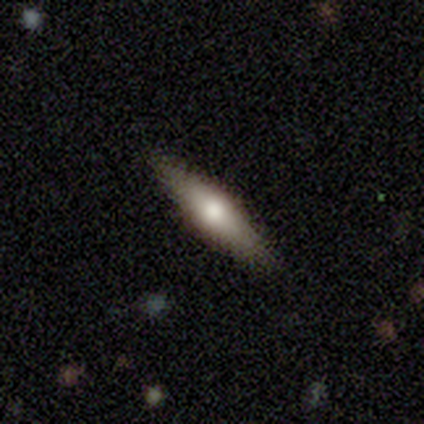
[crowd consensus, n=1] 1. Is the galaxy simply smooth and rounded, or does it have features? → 100% smooth, 0% featured or disk, 0% star or artifact.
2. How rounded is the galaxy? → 100% cigar-shaped, 0% round, 0% in between.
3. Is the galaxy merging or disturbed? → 100% minor disturbance, 0% none, 0% major disturbance, 0% merger.